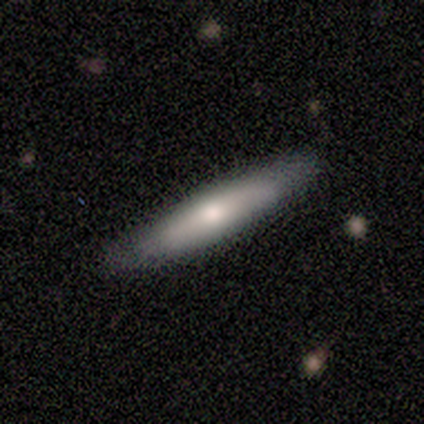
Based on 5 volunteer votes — Q: Smooth or featured?
A: featured or disk (80%); runner-up: smooth (20%)
Q: Edge-on disk?
A: yes (75%); runner-up: no (25%)
Q: Edge-on bulge?
A: rounded (100%)
Q: Merging?
A: none (80%); runner-up: minor disturbance (20%)